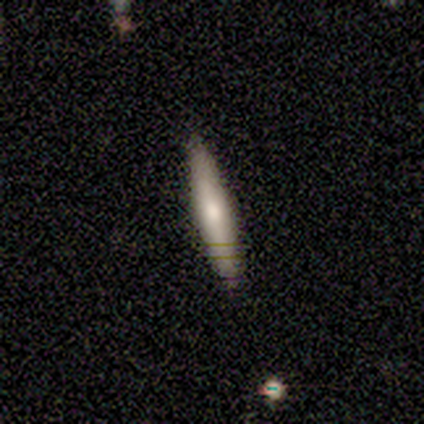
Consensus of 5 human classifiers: A smooth galaxy with no disk features (80%) that is cigar-shaped (100%).

Vote fractions:
- Smooth or featured? smooth: 80% / featured or disk: 20% / star or artifact: 0%
- How rounded? cigar-shaped: 100% / round: 0% / in between: 0%
- Merging? none: 100% / minor disturbance: 0% / major disturbance: 0% / merger: 0%